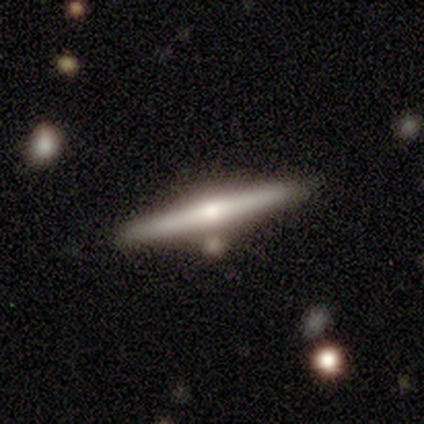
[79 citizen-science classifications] smooth-or-featured: featured or disk: 81% | smooth: 13% | star or artifact: 6%
  disk-edge-on: yes: 98% | no: 2%
    edge-on-bulge: rounded: 87% | boxy: 6% | none: 6%
  merging: none: 80% | minor disturbance: 11% | merger: 9% | major disturbance: 0%